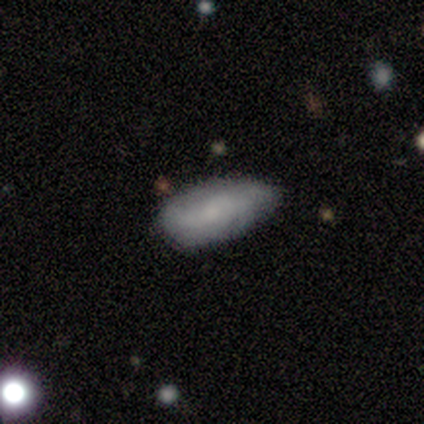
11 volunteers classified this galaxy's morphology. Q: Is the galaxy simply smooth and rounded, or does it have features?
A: smooth — 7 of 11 (64%).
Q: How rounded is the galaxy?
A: in between — 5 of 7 (71%).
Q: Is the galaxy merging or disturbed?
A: none — 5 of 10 (50%, tied with minor disturbance).